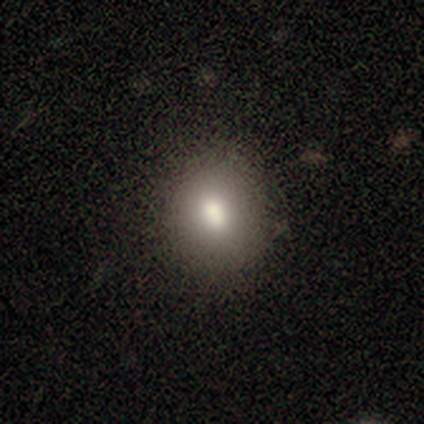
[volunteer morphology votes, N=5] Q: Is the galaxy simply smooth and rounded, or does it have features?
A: smooth — 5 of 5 (100%).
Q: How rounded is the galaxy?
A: in between — 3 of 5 (60%).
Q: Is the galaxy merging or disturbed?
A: none — 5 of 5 (100%).